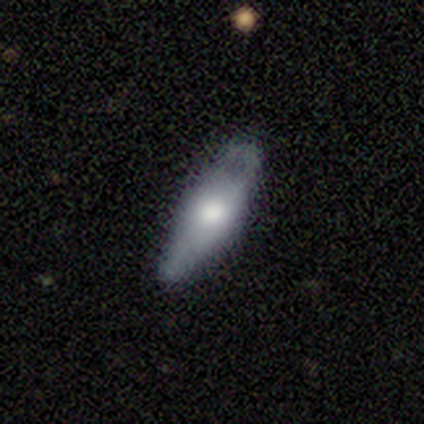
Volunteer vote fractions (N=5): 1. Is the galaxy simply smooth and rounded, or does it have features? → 60% smooth, 40% featured or disk, 0% star or artifact.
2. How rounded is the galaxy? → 67% in between, 33% cigar-shaped, 0% round.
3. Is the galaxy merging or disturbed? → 80% none, 20% minor disturbance, 0% major disturbance, 0% merger.